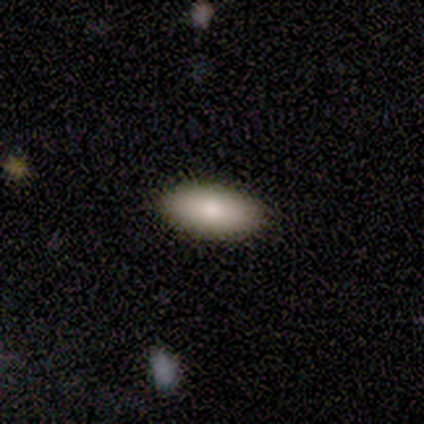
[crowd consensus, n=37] Overall: smooth (86%). How rounded: in between (94%). Merging: none (95%).